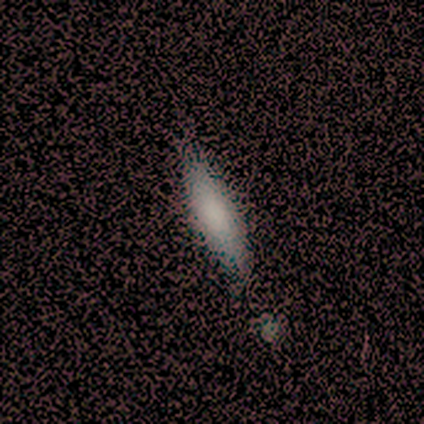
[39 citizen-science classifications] smooth 79%, featured or disk 18%, star or artifact 3%. Down the decision tree: how rounded — cigar-shaped (61%); merging — none (53%).